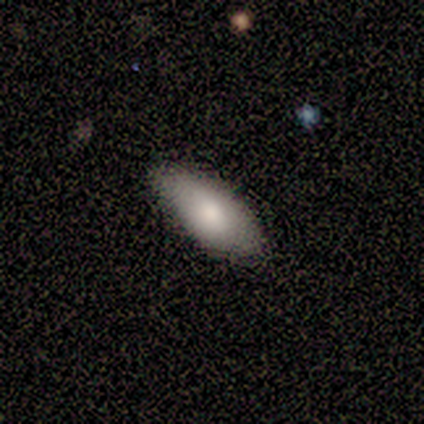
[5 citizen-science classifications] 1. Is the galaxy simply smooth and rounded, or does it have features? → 80% smooth, 20% featured or disk, 0% star or artifact.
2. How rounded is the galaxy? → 75% in between, 25% cigar-shaped, 0% round.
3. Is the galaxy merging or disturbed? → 80% none, 20% minor disturbance, 0% major disturbance, 0% merger.